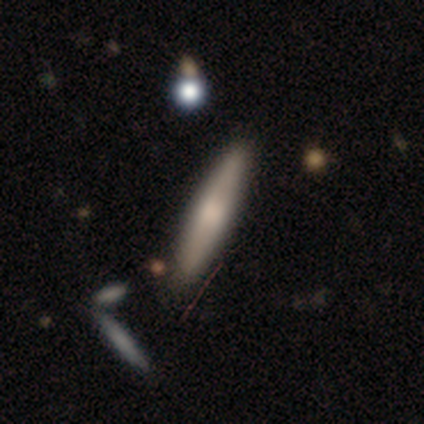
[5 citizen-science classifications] Morphology: type=featured or disk (80%); edge-on=yes (100%); edge-on bulge=rounded (75%); merging=none (100%).